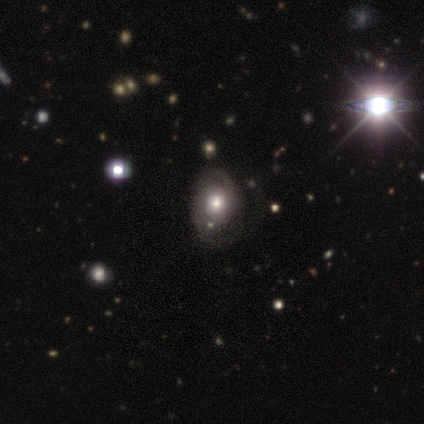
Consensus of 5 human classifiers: A smooth galaxy with no disk features (40%, tied with featured or disk) that is round (100%). Merging: none (50%, tied with major disturbance).